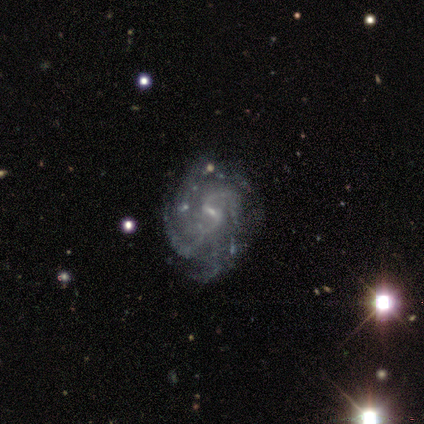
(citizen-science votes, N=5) smooth-or-featured: featured or disk: 80% | smooth: 20% | star or artifact: 0%
  disk-edge-on: no: 100% | yes: 0%
    bar: no: 50% | strong: 25% | weak: 25%
    has-spiral-arms: yes: 75% | no: 25%
      spiral-winding: tight: 67% | medium: 33% | loose: 0%
      spiral-arm-count: can't tell: 67% | 2: 33% | 1: 0% | 3: 0% | 4: 0% | more than 4: 0%
    bulge-size: small: 75% | none: 25% | dominant: 0% | large: 0% | moderate: 0%
  merging: minor disturbance: 60% | none: 40% | major disturbance: 0% | merger: 0%